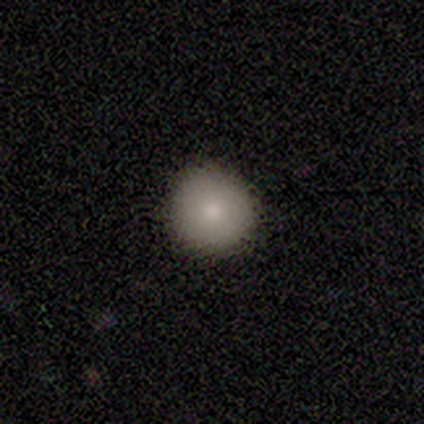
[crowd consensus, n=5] Smooth or featured?
  - smooth: 100% *
  - featured or disk: 0%
  - star or artifact: 0%
How rounded?
  - round: 80% *
  - in between: 20%
  - cigar-shaped: 0%
Merging?
  - none: 60% *
  - minor disturbance: 40%
  - major disturbance: 0%
  - merger: 0%